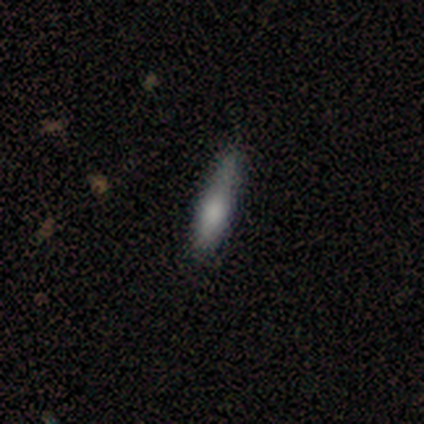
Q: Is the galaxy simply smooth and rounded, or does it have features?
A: smooth — 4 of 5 (80%).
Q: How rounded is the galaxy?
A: cigar-shaped — 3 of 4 (75%).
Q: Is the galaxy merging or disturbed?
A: none — 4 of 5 (80%).